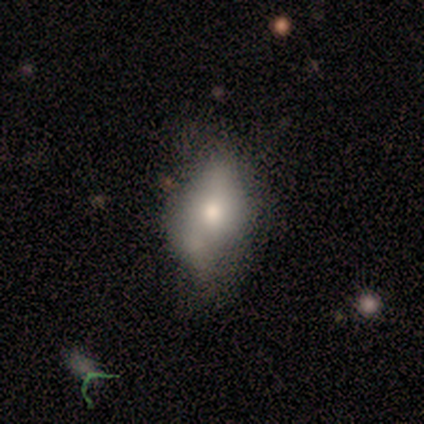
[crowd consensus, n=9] Q: Smooth or featured?
A: smooth (78%); runner-up: featured or disk (11%)
Q: How rounded?
A: in between (86%); runner-up: cigar-shaped (14%)
Q: Merging?
A: minor disturbance (50%); runner-up: merger (25%)